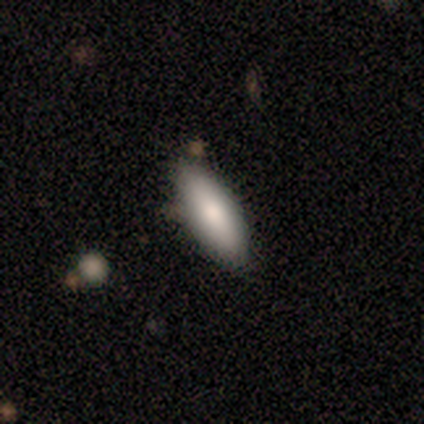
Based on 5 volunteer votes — A smooth galaxy with no disk features (80%) that is cigar-shaped (75%).

Vote fractions:
- Smooth or featured? smooth: 80% / star or artifact: 20% / featured or disk: 0%
- How rounded? cigar-shaped: 75% / in between: 25% / round: 0%
- Merging? none: 75% / minor disturbance: 25% / major disturbance: 0% / merger: 0%